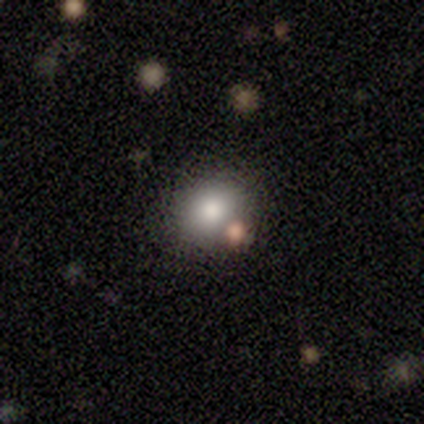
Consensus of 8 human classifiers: This is likely a smooth galaxy (75%). How rounded: likely round (67%). Merging: clearly none (100%).